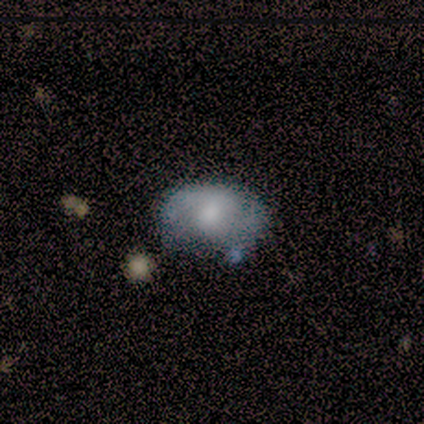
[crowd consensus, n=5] Smooth or featured? 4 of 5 (80%) said smooth. How rounded? 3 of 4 (75%) said in between. Merging? 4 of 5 (80%) said none.